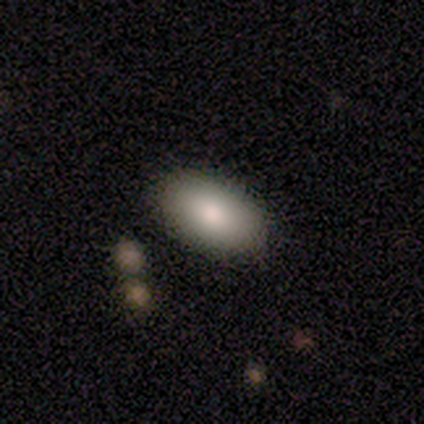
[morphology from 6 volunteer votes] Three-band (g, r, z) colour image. It shows a smooth galaxy with no disk features (100%) that is in between round and cigar-shaped (67%). Merging: none (83%).